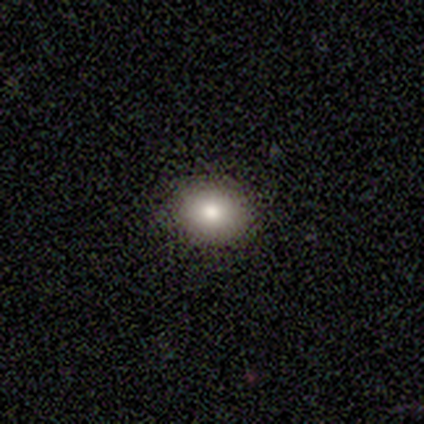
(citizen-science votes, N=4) smooth-or-featured: smooth: 50% (tied) | star or artifact: 50% (tied) | featured or disk: 0%
  how-rounded: round: 100% | in between: 0% | cigar-shaped: 0%
  merging: none: 100% | minor disturbance: 0% | major disturbance: 0% | merger: 0%